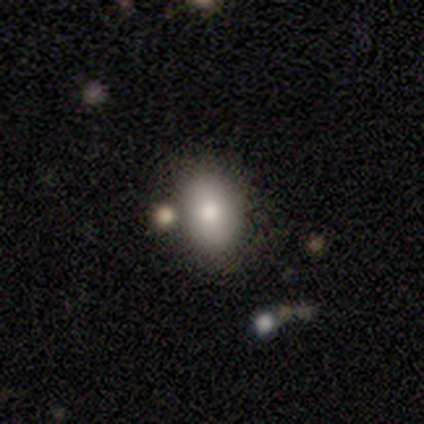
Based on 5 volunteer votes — A smooth galaxy with no disk features (80%) that is in between round and cigar-shaped (100%).

Vote fractions:
- Smooth or featured? smooth: 80% / featured or disk: 20% / star or artifact: 0%
- How rounded? in between: 100% / round: 0% / cigar-shaped: 0%
- Merging? none: 60% / minor disturbance: 40% / major disturbance: 0% / merger: 0%